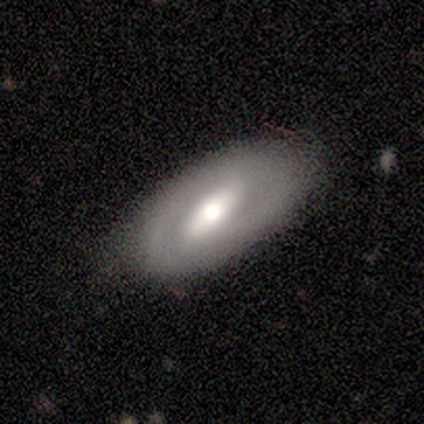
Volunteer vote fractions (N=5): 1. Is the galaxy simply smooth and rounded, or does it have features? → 80% featured or disk, 20% smooth, 0% star or artifact.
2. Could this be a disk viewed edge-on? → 100% no, 0% yes.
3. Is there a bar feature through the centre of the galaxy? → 100% strong, 0% weak, 0% no.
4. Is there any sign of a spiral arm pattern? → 50% yes (tied), 50% no (tied).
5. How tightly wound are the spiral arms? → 50% medium (tied), 50% loose (tied), 0% tight.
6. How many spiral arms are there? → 100% 2, 0% 1, 0% 3, 0% 4, 0% more than 4, 0% can't tell.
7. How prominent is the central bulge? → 50% large (tied), 50% moderate (tied), 0% dominant, 0% small, 0% none.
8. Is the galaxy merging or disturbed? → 80% none, 20% minor disturbance, 0% major disturbance, 0% merger.